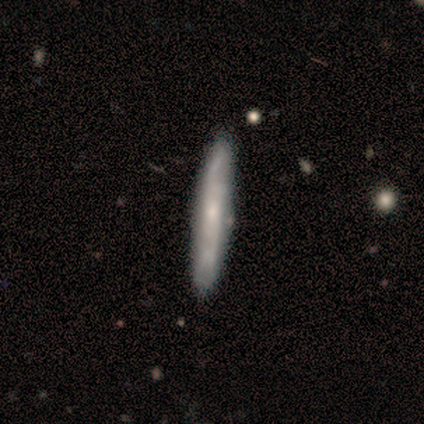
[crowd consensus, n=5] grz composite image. It shows a featured or disk galaxy (60%) viewed edge-on (67%) with no central bulge (50%, tied with rounded). Merging: none (100%).